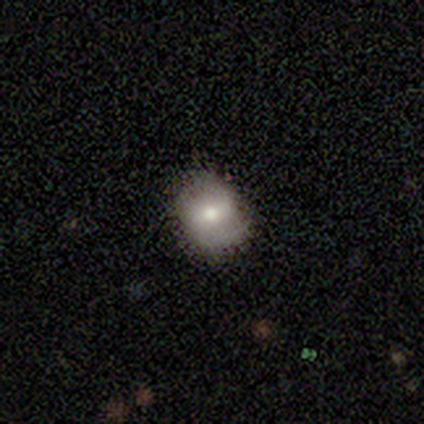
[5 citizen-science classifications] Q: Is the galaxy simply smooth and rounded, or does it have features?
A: smooth — 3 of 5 (60%).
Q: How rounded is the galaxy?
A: round — 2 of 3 (67%).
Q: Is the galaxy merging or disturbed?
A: none — 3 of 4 (75%).